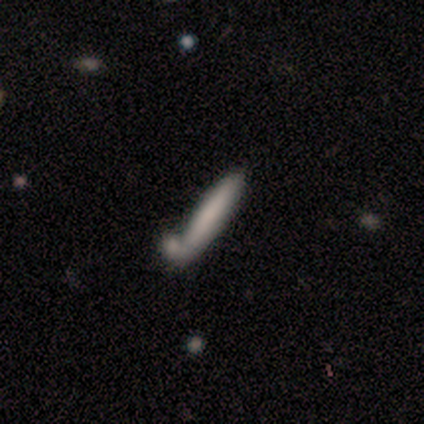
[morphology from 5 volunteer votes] Smooth or featured: smooth — 60% (featured or disk — 20%)
How rounded: cigar-shaped — 67% (in between — 33%)
Merging: none — 50% (minor disturbance — 25%)